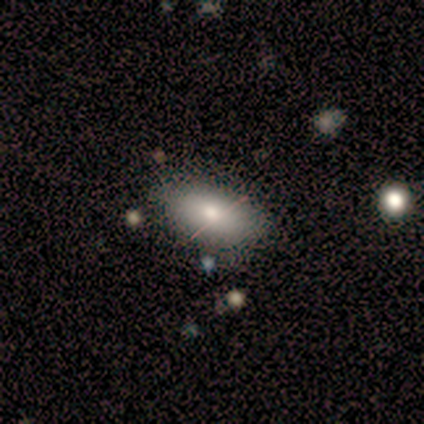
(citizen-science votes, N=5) Overall: smooth (60%; featured or disk 40%). How rounded: in between (100%). Merging: none (80%).